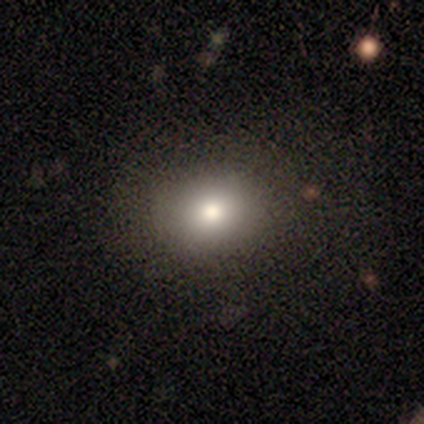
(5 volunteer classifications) This is clearly a smooth galaxy (80%). How rounded: likely in between (75%). Merging: clearly none (100%).